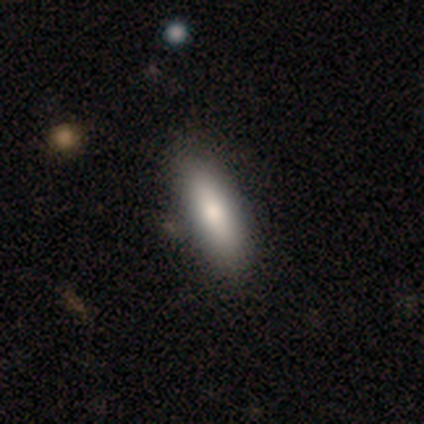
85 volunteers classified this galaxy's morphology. type=smooth (75%); roundness=cigar-shaped (61%); merging=none (79%).